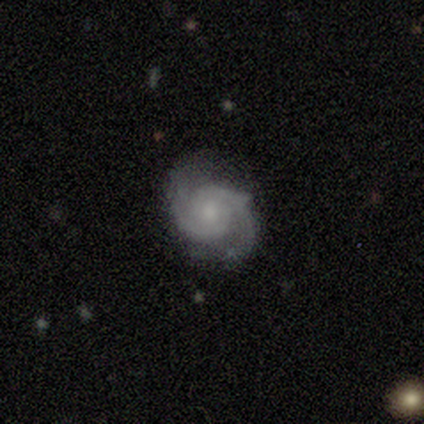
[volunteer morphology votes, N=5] Smooth or featured? featured or disk (100%)
Edge-on disk? no (100%)
Bar? no (60%)
Spiral arms? yes (100%)
Spiral winding? tight (60%)
Spiral arm count? 2 (100%)
Bulge size? small (60%)
Merging? none (60%)